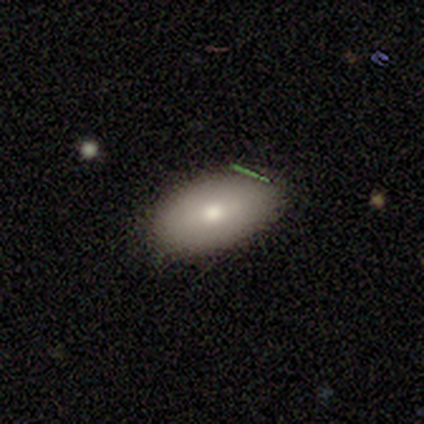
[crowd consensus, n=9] This appears to be a smooth galaxy with no disk features (56%) that is in between round and cigar-shaped (100%). Merging: none (67%).